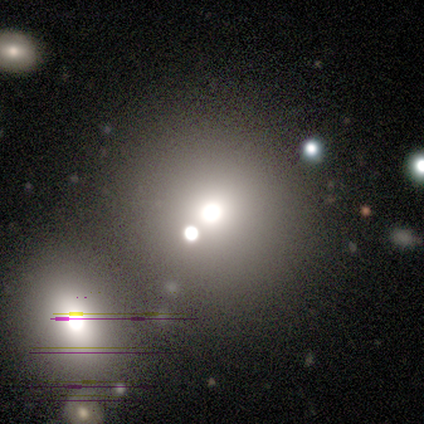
Smooth or featured? 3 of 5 (60%) said smooth. How rounded? 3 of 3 (100%) said round. Merging? 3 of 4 (75%) said none.